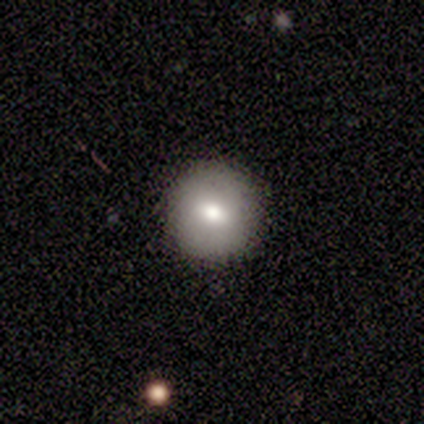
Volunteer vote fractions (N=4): A smooth galaxy with no disk features (100%) that is round (75%).

Vote fractions:
- Smooth or featured? smooth: 100% / featured or disk: 0% / star or artifact: 0%
- How rounded? round: 75% / in between: 25% / cigar-shaped: 0%
- Merging? none: 100% / minor disturbance: 0% / major disturbance: 0% / merger: 0%